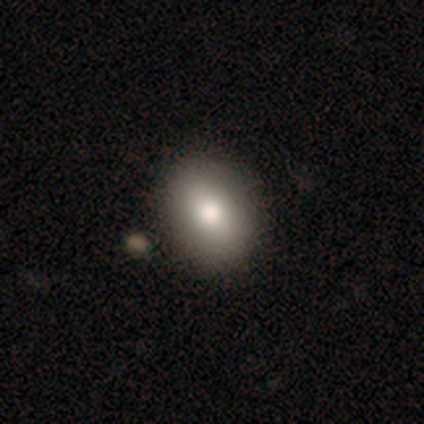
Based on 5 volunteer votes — smooth_or_featured: smooth (p=0.60) [alt: featured or disk p=0.20]
how_rounded: in between (p=0.67) [alt: round p=0.33]
merging: none (p=0.75) [alt: minor disturbance p=0.25]